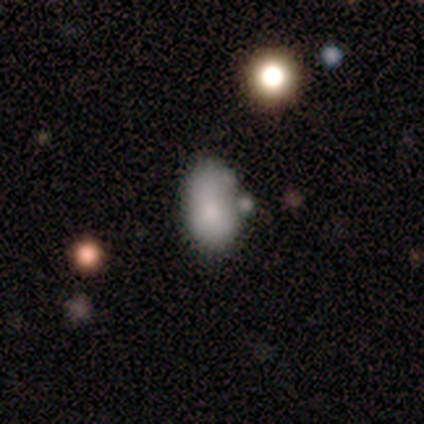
A smooth galaxy with no disk features (100%) that is in between round and cigar-shaped (100%). Merging: none (40%, tied with merger).